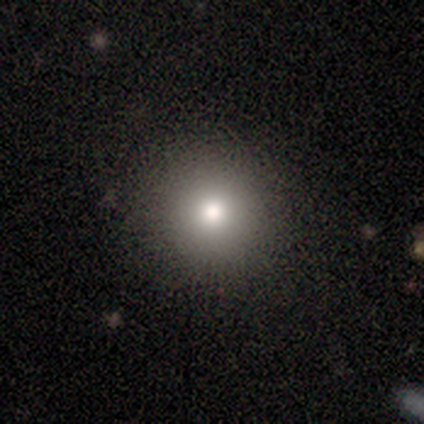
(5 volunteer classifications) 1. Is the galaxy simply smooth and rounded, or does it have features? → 100% smooth, 0% featured or disk, 0% star or artifact.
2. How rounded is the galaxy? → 100% round, 0% in between, 0% cigar-shaped.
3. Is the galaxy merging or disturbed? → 100% none, 0% minor disturbance, 0% major disturbance, 0% merger.